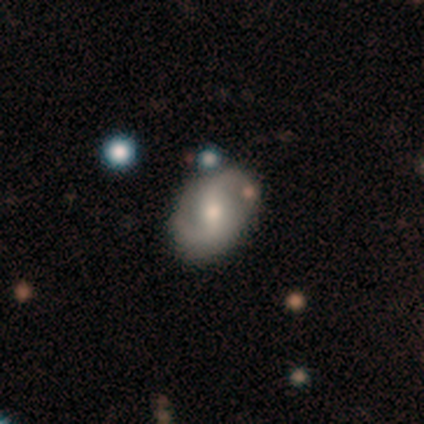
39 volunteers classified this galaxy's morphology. Overall: featured or disk (64%). Edge-on disk: no (88%). Bar: strong (45%; weak 36%). Spiral arms: yes (100%). Spiral arm count: 2 (95%). Spiral winding: medium (41%, tied with loose). Bulge size: small (45%; moderate 41%). Merging: none (67%).